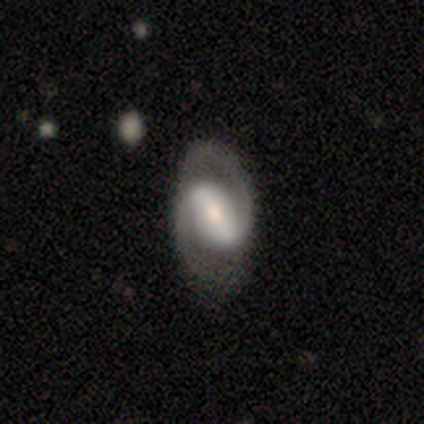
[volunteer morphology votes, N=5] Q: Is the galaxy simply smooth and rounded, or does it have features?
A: featured or disk — 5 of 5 (100%).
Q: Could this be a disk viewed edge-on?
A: no — 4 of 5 (80%).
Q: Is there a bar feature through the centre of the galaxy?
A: strong — 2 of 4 (50%, tied with weak).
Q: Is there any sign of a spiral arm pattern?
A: yes — 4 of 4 (100%).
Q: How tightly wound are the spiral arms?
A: medium — 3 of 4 (75%).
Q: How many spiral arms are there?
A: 2 — 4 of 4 (100%).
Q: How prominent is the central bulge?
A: moderate — 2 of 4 (50%, tied with small).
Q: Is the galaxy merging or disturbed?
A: none — 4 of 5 (80%).